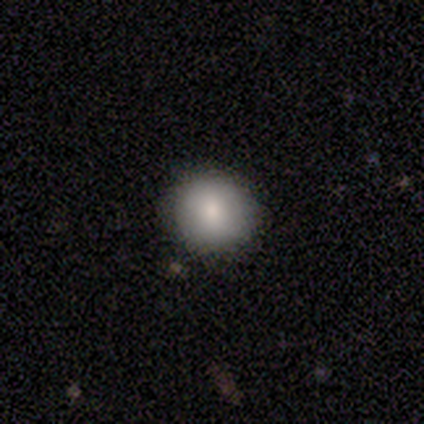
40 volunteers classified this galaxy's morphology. smooth-or-featured: smooth: 80% | star or artifact: 12% | featured or disk: 8%
  how-rounded: round: 91% | in between: 9% | cigar-shaped: 0%
  merging: none: 80% | minor disturbance: 14% | merger: 6% | major disturbance: 0%